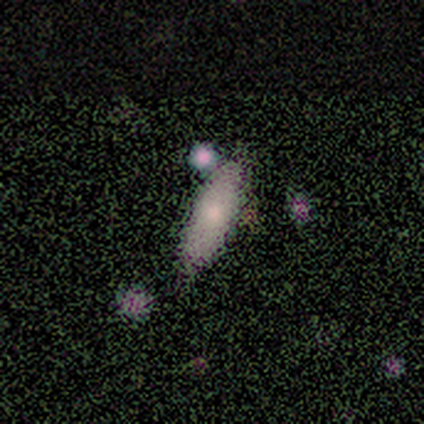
smooth-or-featured: smooth: 60% | star or artifact: 40% | featured or disk: 0%
  how-rounded: in between: 67% | cigar-shaped: 33% | round: 0%
  merging: none: 67% | minor disturbance: 33% | major disturbance: 0% | merger: 0%